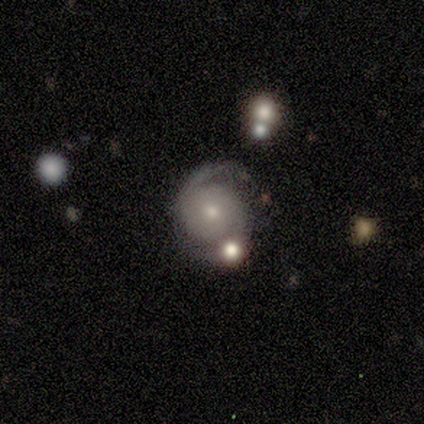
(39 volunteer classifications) Volunteers were most divided on "spiral winding": tight: 50%, medium: 41%, loose: 9%. More confident: edge-on disk — no (97%); spiral arms — yes (97%); spiral arm count — 2 (97%); smooth or featured — featured or disk (87%); bar — no (85%); merging — none (77%); bulge size — small (70%).